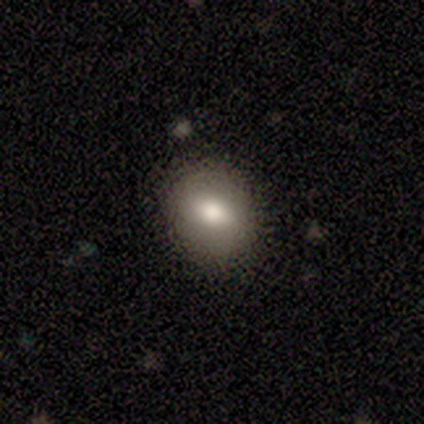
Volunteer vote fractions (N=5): smooth_or_featured: smooth (p=0.60) [alt: star or artifact p=0.40]
how_rounded: round (p=0.67) [alt: in between p=0.33]
merging: none (p=0.67) [alt: minor disturbance p=0.33]